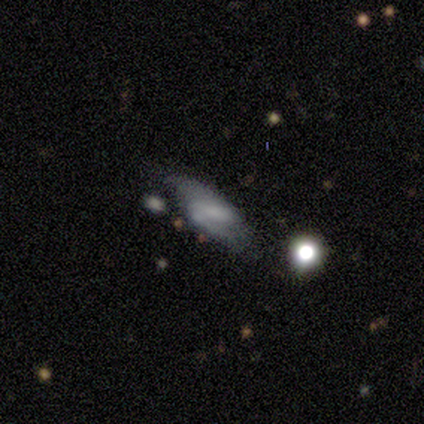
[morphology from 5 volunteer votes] smooth-or-featured: featured or disk: 60% | smooth: 40% | star or artifact: 0%
  disk-edge-on: no: 67% | yes: 33%
    bar: weak: 50% (tied) | no: 50% (tied) | strong: 0%
    has-spiral-arms: no: 100% | yes: 0%
    bulge-size: dominant: 50% (tied) | small: 50% (tied) | large: 0% | moderate: 0% | none: 0%
  merging: minor disturbance: 40% (tied) | major disturbance: 40% (tied) | none: 20% | merger: 0%